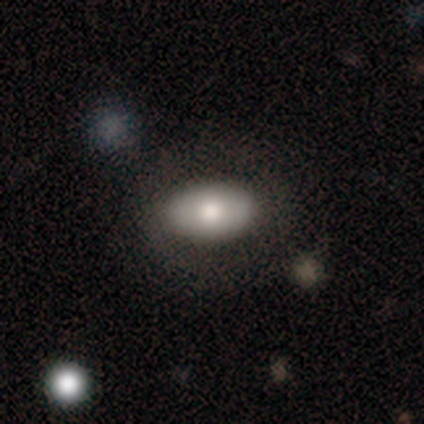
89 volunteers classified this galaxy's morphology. Smooth or featured? 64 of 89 (72%) said smooth. How rounded? 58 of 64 (91%) said in between. Merging? 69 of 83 (83%) said none.